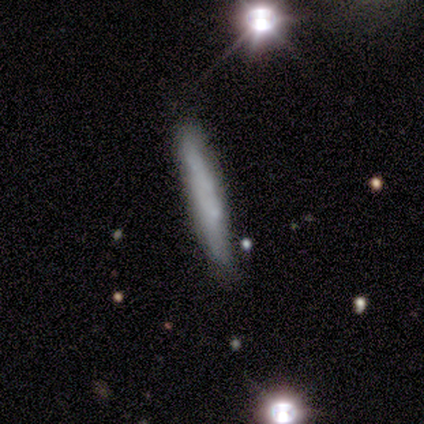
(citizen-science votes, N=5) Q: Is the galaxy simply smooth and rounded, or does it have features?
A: smooth — 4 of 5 (80%).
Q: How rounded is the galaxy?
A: cigar-shaped — 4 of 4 (100%).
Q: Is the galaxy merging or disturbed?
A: none — 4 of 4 (100%).